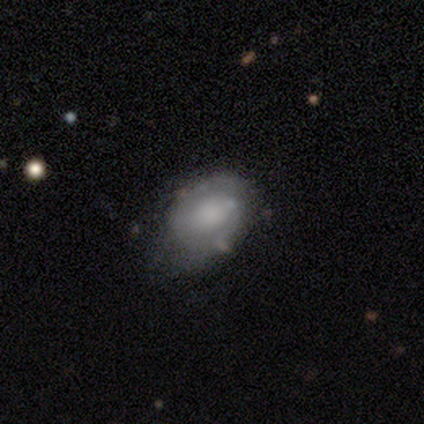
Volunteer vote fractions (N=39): Smooth or featured?
  - smooth: 49% * (tied)
  - featured or disk: 49% * (tied)
  - star or artifact: 3%
How rounded?
  - in between: 84% *
  - round: 16%
  - cigar-shaped: 0%
Merging?
  - none: 32% *
  - minor disturbance: 13%
  - major disturbance: 11%
  - merger: 3%